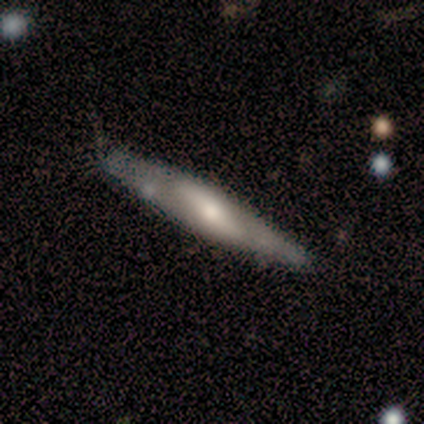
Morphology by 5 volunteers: This appears to be a featured or disk galaxy (60%) viewed edge-on (67%) with a rounded central bulge (100%). Merging: minor disturbance (60%).